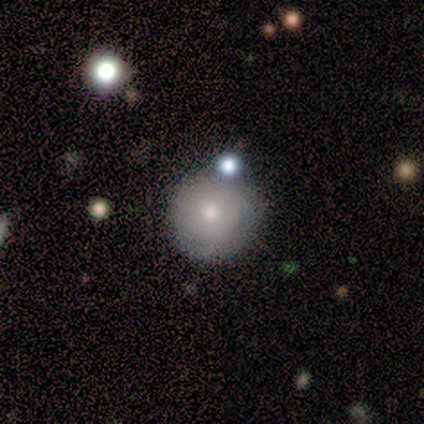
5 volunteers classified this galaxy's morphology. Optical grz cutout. It shows a smooth galaxy with no disk features (60%) that is round (100%). Merging: none (100%).